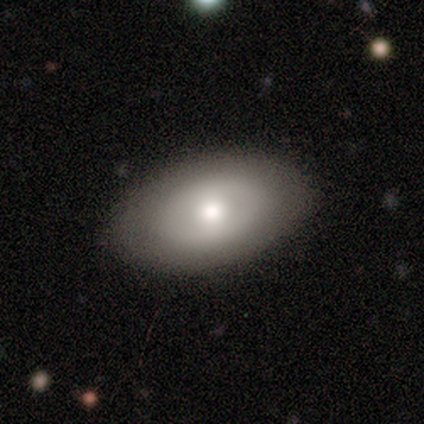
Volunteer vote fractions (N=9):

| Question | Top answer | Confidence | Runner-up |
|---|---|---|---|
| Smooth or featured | smooth | 89% | featured or disk (11%) |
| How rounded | in between | 88% | round (12%) |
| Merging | none | 78% | minor disturbance (11%) |